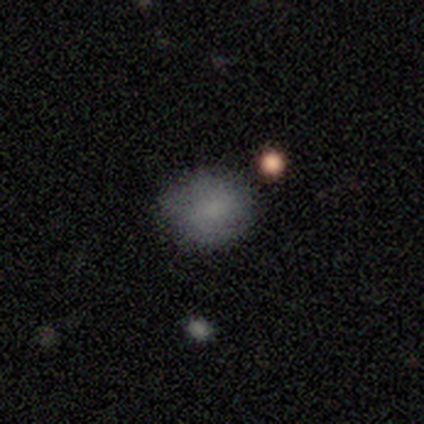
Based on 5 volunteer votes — smooth-or-featured: smooth: 80% | star or artifact: 20% | featured or disk: 0%
  how-rounded: round: 100% | in between: 0% | cigar-shaped: 0%
  merging: none: 100% | minor disturbance: 0% | major disturbance: 0% | merger: 0%